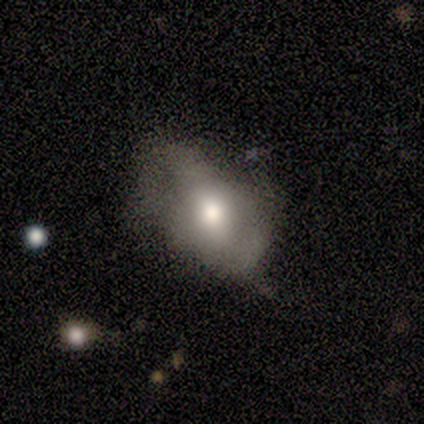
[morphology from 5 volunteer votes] Smooth or featured?
  - smooth: 80% *
  - featured or disk: 20%
  - star or artifact: 0%
How rounded?
  - in between: 75% *
  - round: 25%
  - cigar-shaped: 0%
Merging?
  - none: 60% *
  - minor disturbance: 20%
  - major disturbance: 20%
  - merger: 0%